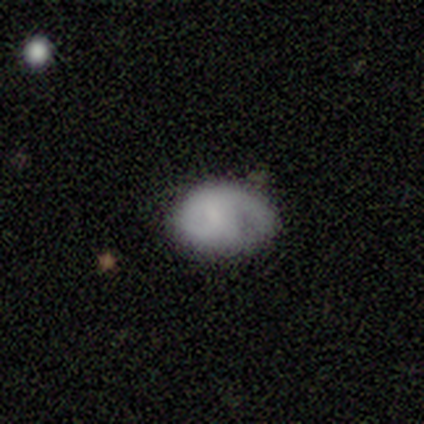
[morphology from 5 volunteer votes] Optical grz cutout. It shows a smooth galaxy with no disk features (100%) that is in between round and cigar-shaped (80%). Merging: minor disturbance (80%).